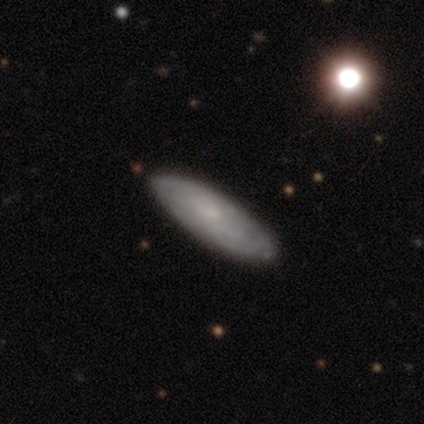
Smooth or featured? featured or disk (61%)
Edge-on disk? no (83%)
Bar? no (79%)
Spiral arms? yes (58%)
Spiral winding? tight (73%)
Spiral arm count? can't tell (82%)
Bulge size? small (53%)
Merging? none (51%)